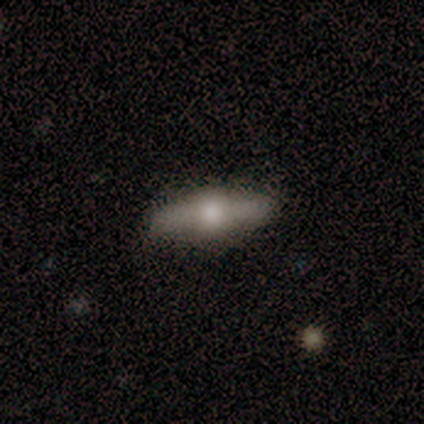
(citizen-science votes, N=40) Overall: featured or disk (62%; smooth 32%). Edge-on disk: yes (88%). Edge-on bulge: rounded (91%). Merging: none (79%).